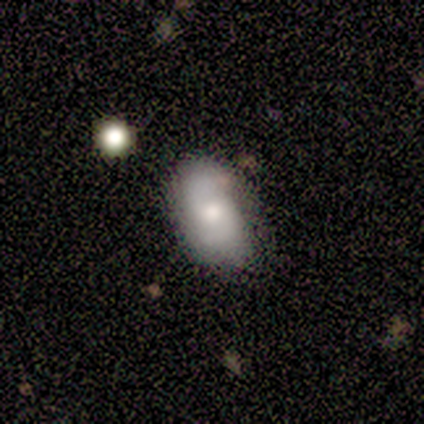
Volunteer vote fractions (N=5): Q: Smooth or featured?
A: featured or disk (80%); runner-up: smooth (20%)
Q: Edge-on disk?
A: no (100%)
Q: Bar?
A: no (75%); runner-up: weak (25%)
Q: Spiral arms?
A: yes (100%)
Q: Spiral winding?
A: medium (50%); tied with: loose (50%)
Q: Spiral arm count?
A: 2 (75%); runner-up: 1 (25%)
Q: Bulge size?
A: moderate (75%); runner-up: small (25%)
Q: Merging?
A: none (100%)